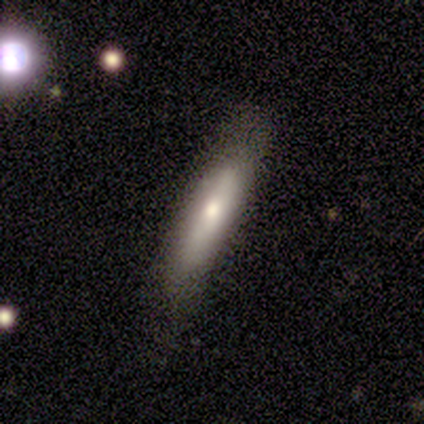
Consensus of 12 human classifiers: smooth-or-featured: smooth: 58% | featured or disk: 25% | star or artifact: 17%
  how-rounded: cigar-shaped: 100% | round: 0% | in between: 0%
  merging: none: 90% | minor disturbance: 10% | major disturbance: 0% | merger: 0%